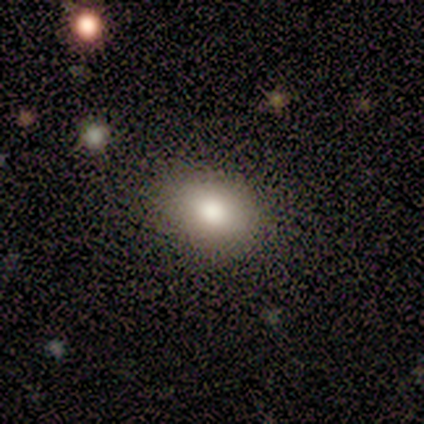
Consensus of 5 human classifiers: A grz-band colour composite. It shows a smooth galaxy with no disk features (80%) that is in between round and cigar-shaped (75%). Merging: none (100%).